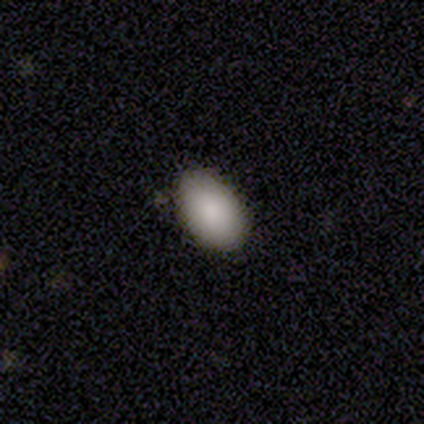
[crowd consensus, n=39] This is clearly a smooth galaxy (95%). How rounded: clearly in between (89%). Merging: clearly none (87%).